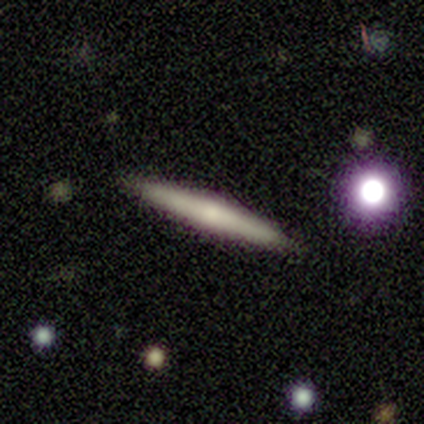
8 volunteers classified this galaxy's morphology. smooth 62%, featured or disk 38%, star or artifact 0%. Down the decision tree: how rounded — cigar-shaped (100%); merging — none (88%).